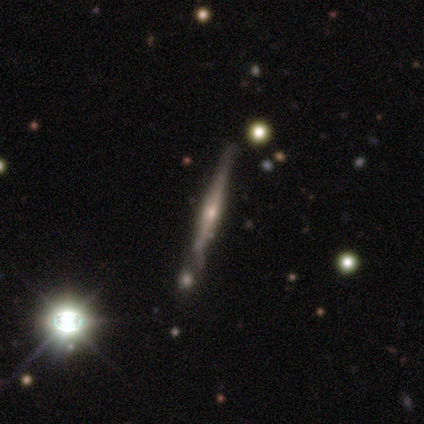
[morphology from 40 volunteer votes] smooth-or-featured: featured or disk: 75% | smooth: 18% | star or artifact: 8%
  disk-edge-on: yes: 100% | no: 0%
    edge-on-bulge: rounded: 87% | none: 10% | boxy: 3%
  merging: none: 62% | minor disturbance: 22% | merger: 11% | major disturbance: 5%